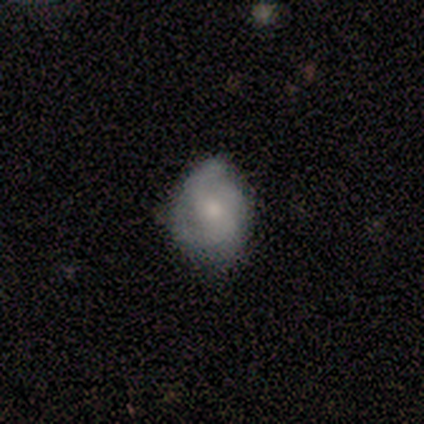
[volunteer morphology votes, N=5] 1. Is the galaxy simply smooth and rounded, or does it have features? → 80% featured or disk, 20% smooth, 0% star or artifact.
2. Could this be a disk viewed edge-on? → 100% no, 0% yes.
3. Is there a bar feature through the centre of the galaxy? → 75% no, 25% weak, 0% strong.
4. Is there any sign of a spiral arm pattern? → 50% yes (tied), 50% no (tied).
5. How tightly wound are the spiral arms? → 50% medium (tied), 50% loose (tied), 0% tight.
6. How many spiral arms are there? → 100% 2, 0% 1, 0% 3, 0% 4, 0% more than 4, 0% can't tell.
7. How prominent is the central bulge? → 50% none, 25% moderate, 25% small, 0% dominant, 0% large.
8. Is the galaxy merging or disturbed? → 60% none, 40% minor disturbance, 0% major disturbance, 0% merger.